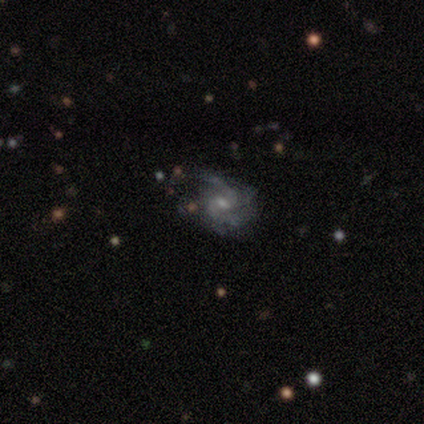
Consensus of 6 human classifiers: Smooth or featured? 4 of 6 (67%) said featured or disk. Edge-on disk? 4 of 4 (100%) said no. Bar? 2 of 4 (50%, tied with no) said weak. Spiral arms? 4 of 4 (100%) said yes. Spiral winding? 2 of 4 (50%) said medium. Spiral arm count? 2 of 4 (50%, tied with can't tell) said 2. Bulge size? 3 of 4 (75%) said small. Merging? 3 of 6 (50%) said none.